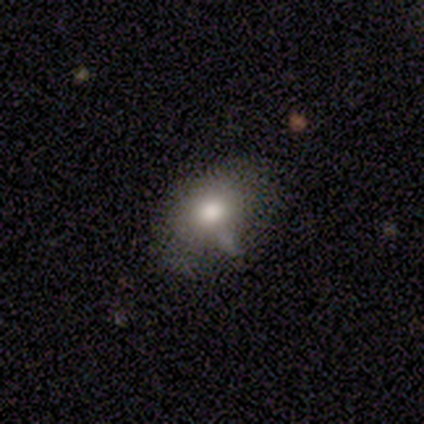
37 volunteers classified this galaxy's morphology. Smooth or featured? smooth (62%)
How rounded? in between (70%)
Merging? none (52%)